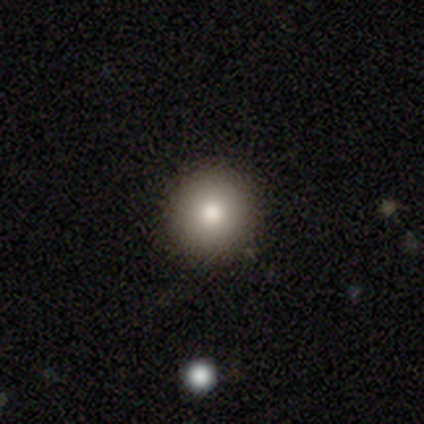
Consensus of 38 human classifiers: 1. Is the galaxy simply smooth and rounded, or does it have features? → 95% smooth, 5% star or artifact, 0% featured or disk.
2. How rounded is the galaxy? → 97% round, 3% in between, 0% cigar-shaped.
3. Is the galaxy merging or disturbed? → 92% none, 6% minor disturbance, 3% major disturbance, 0% merger.